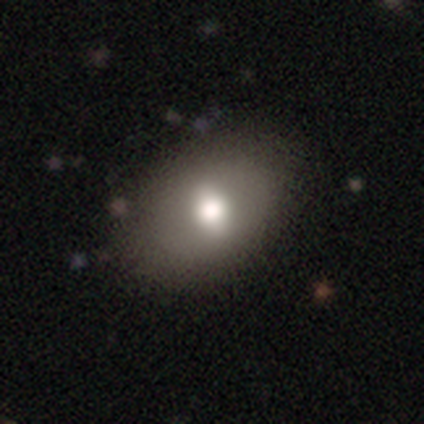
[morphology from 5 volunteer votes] Smooth or featured? smooth (80%)
How rounded? in between (100%)
Merging? none (80%)